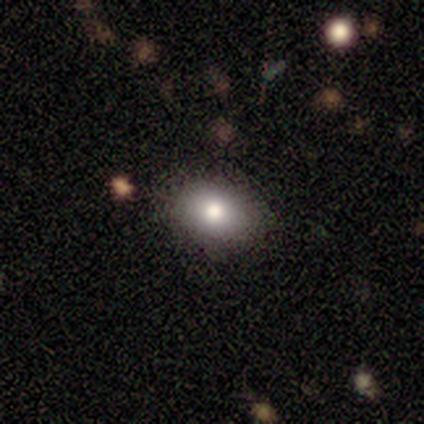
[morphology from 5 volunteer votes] Smooth or featured? 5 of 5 (100%) said smooth. How rounded? 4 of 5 (80%) said in between. Merging? 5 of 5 (100%) said none.